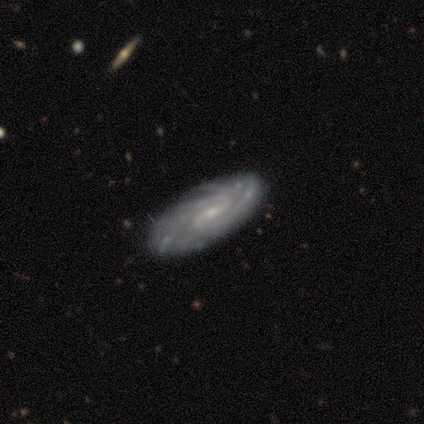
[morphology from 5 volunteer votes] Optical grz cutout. It shows a featured or disk galaxy (100%) with a weak bar (50%, tied with no), 2 (50%) tight (75%) spiral arms (100%) and a small central bulge (75%). Merging: none (80%).